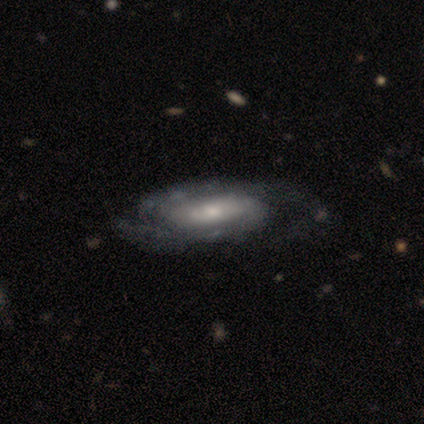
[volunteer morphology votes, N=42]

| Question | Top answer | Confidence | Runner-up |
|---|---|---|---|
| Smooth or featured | featured or disk | 69% | smooth (19%) |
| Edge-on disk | no | 90% | yes (10%) |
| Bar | no | 73% | weak (23%) |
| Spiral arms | yes | 96% | no (4%) |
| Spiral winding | tight | 52% | medium (40%) |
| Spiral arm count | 2 | 72% | can't tell (24%) |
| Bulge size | moderate | 69% | small (19%) |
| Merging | none | 49% | major disturbance (19%) |